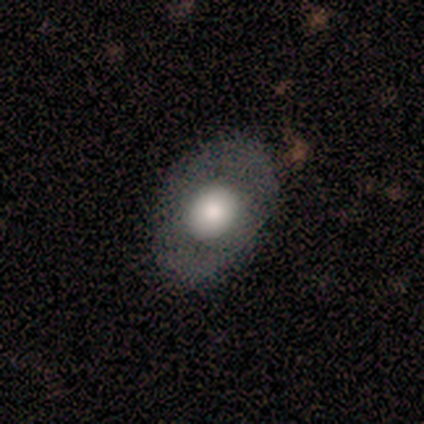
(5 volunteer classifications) smooth-or-featured: smooth: 80% | featured or disk: 20% | star or artifact: 0%
  how-rounded: in between: 100% | round: 0% | cigar-shaped: 0%
  merging: none: 40% (tied) | minor disturbance: 40% (tied) | major disturbance: 20% | merger: 0%